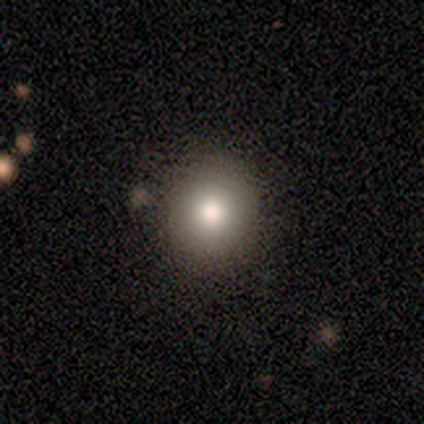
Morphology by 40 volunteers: This is clearly a smooth galaxy (88%). How rounded: clearly round (91%). Merging: likely none (76%).